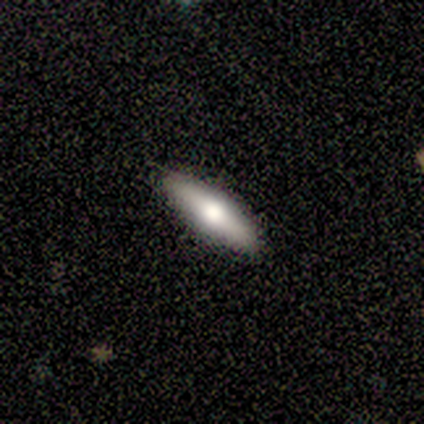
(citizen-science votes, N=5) Morphology: type=smooth (80%); roundness=in between (50%, tied with cigar-shaped); merging=none (100%).